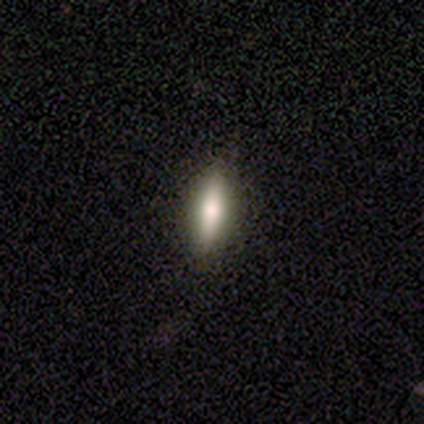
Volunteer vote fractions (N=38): smooth_or_featured: smooth (p=0.74) [alt: featured or disk p=0.24]
how_rounded: cigar-shaped (p=0.68) [alt: in between p=0.32]
merging: none (p=0.95) [alt: minor disturbance p=0.05]